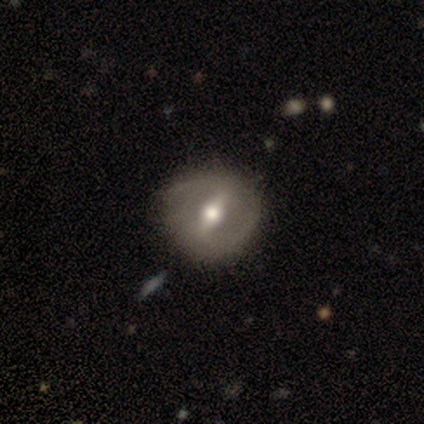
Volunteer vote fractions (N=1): Smooth or featured: star or artifact — 100%